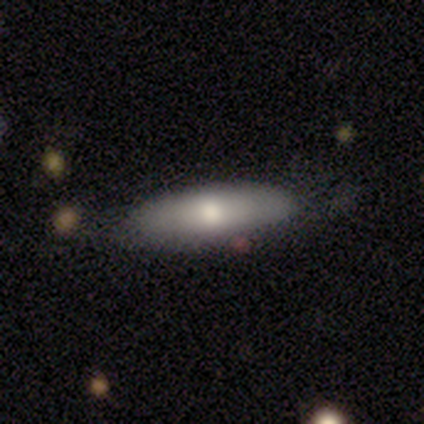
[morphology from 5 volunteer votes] This is clearly a smooth galaxy (80%). How rounded: likely cigar-shaped (75%). Merging: likely none (60%).